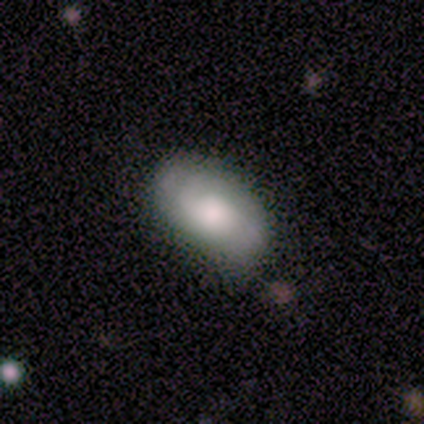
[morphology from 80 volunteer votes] Smooth or featured?
  - smooth: 65% *
  - featured or disk: 29%
  - star or artifact: 6%
How rounded?
  - in between: 98% *
  - cigar-shaped: 2%
  - round: 0%
Merging?
  - none: 73% *
  - minor disturbance: 24%
  - major disturbance: 3%
  - merger: 0%